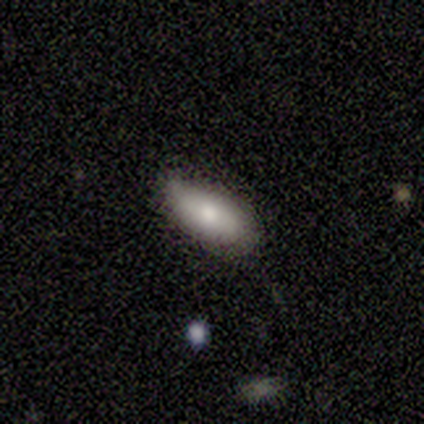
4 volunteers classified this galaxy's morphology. Smooth or featured: smooth — 100%
How rounded: in between — 100%
Merging: minor disturbance — 75% (none — 25%)